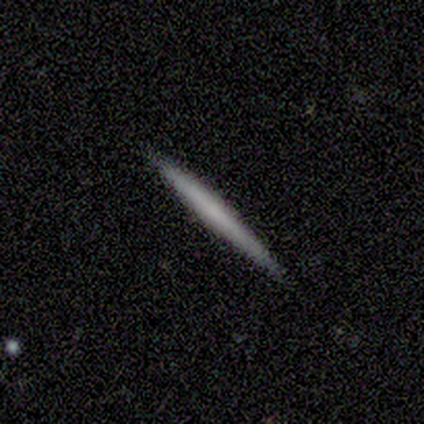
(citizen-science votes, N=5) Smooth or featured? 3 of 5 (60%) said featured or disk. Edge-on disk? 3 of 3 (100%) said yes. Edge-on bulge? 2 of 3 (67%) said none. Merging? 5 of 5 (100%) said none.